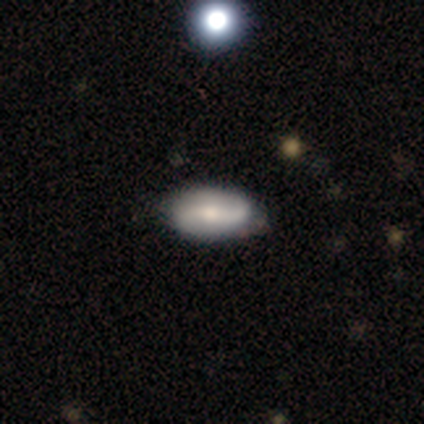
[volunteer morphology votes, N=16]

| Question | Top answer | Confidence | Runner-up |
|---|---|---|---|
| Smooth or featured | featured or disk | 69% | smooth (31%) |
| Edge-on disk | no | 91% | yes (9%) |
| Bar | no | 50% | weak (30%) |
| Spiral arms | yes | 90% | no (10%) |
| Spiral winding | loose | 67% | tight (22%) |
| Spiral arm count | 2 | 67% | 1 (22%) |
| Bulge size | small | 60% | moderate (40%) |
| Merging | none | 81% | minor disturbance (12%) |